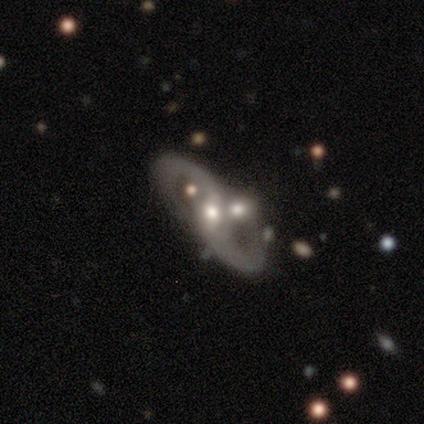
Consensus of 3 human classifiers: A featured or disk galaxy (67%) with no bar (100%), 2 (100%) medium (100%) spiral arms (50%, tied with no) and a moderate central bulge (50%, tied with small). Merging: none (50%, tied with minor disturbance).